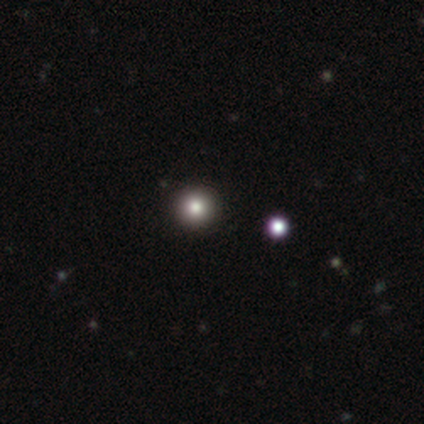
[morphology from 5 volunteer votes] Smooth or featured? 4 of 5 (80%) said smooth. How rounded? 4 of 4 (100%) said round. Merging? 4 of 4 (100%) said none.